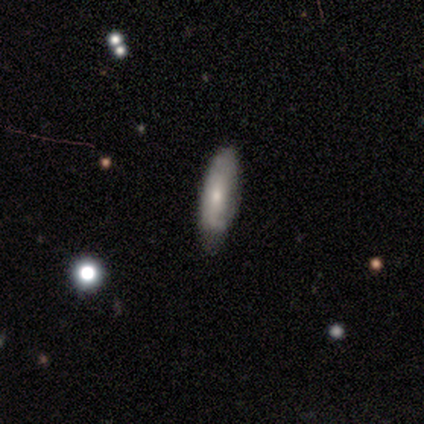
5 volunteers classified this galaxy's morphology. smooth 80%, featured or disk 20%, star or artifact 0%. Down the decision tree: how rounded — in between (100%); merging — none (60%).